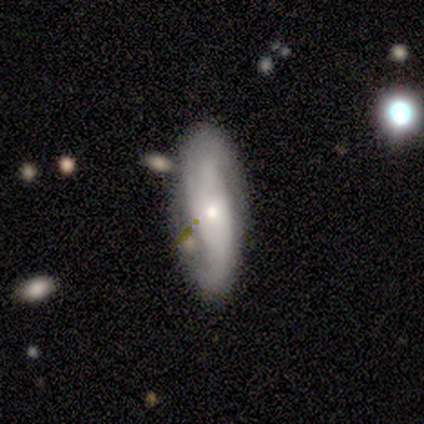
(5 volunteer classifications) Smooth or featured? featured or disk (80%)
Edge-on disk? no (100%)
Bar? no (50%)
Spiral arms? yes (75%)
Spiral winding? loose (67%)
Spiral arm count? 2 (67%)
Bulge size? moderate (50%, tied with small)
Merging? none (60%)